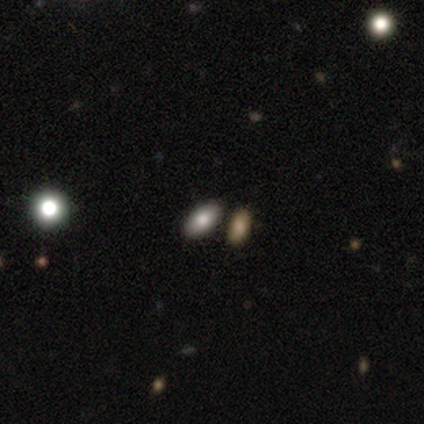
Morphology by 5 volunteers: Smooth or featured?
  - smooth: 80% *
  - featured or disk: 20%
  - star or artifact: 0%
How rounded?
  - in between: 100% *
  - round: 0%
  - cigar-shaped: 0%
Merging?
  - none: 100% *
  - minor disturbance: 0%
  - major disturbance: 0%
  - merger: 0%